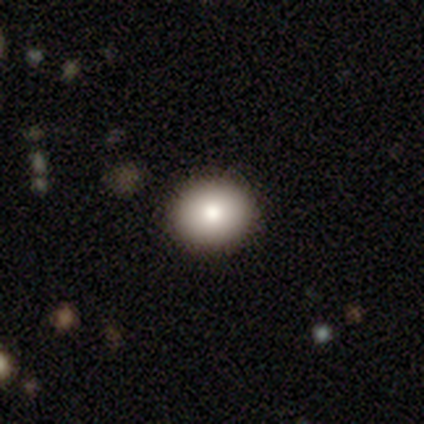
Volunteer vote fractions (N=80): Smooth or featured? smooth (79%)
How rounded? round (79%)
Merging? none (50%)